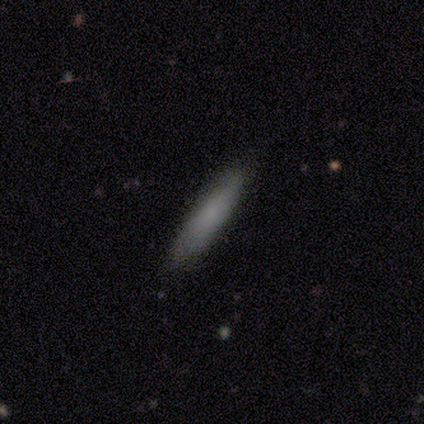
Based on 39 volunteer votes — Volunteers were most divided on "smooth or featured": smooth: 74%, featured or disk: 18%, star or artifact: 8%. More confident: how rounded — cigar-shaped (83%); merging — none (78%).